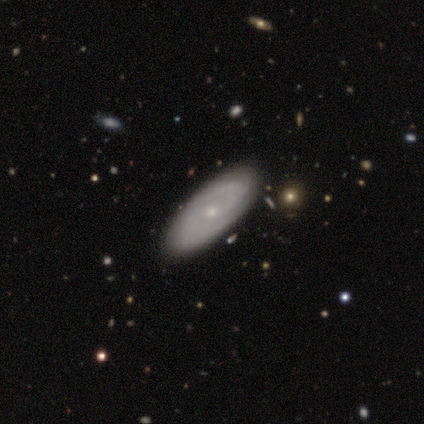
Overall: featured or disk (80%). Edge-on disk: no (100%). Bar: weak (50%, tied with no). Spiral arms: yes (100%). Spiral arm count: 2 (75%). Spiral winding: medium (50%; tight 25%). Bulge size: small (75%). Merging: none (80%).